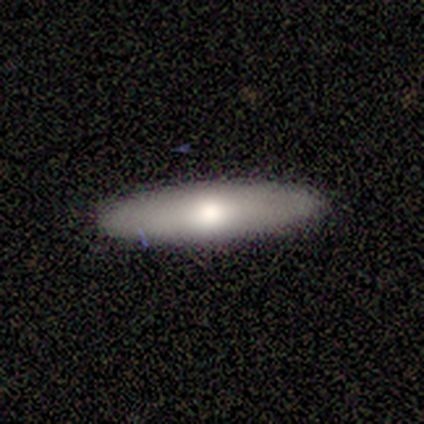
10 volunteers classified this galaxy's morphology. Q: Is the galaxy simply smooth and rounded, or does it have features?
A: smooth — 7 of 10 (70%).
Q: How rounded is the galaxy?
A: cigar-shaped — 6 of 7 (86%).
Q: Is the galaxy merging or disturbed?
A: none — 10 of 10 (100%).